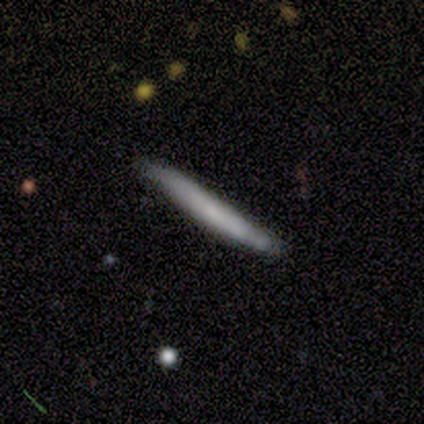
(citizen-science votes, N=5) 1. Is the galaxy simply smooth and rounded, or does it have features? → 60% featured or disk, 40% smooth, 0% star or artifact.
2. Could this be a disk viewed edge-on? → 100% yes, 0% no.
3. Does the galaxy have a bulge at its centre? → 100% none, 0% boxy, 0% rounded.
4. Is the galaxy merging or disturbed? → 80% none, 20% minor disturbance, 0% major disturbance, 0% merger.